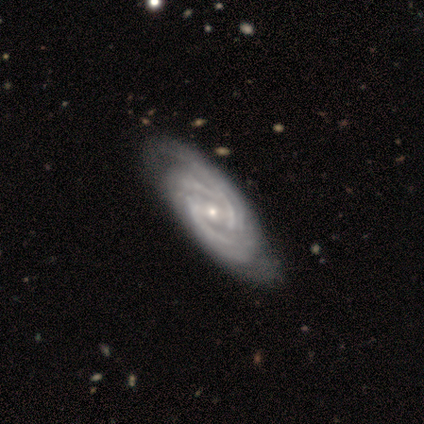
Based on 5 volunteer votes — A featured or disk galaxy (80%) with a weak bar (75%), 2 (50%) tight (75%) spiral arms (100%) and a small central bulge (100%).

Vote fractions:
- Smooth or featured? featured or disk: 80% / smooth: 20% / star or artifact: 0%
- Edge-on disk? no: 100% / yes: 0%
- Bar? weak: 75% / no: 25% / strong: 0%
- Spiral arms? yes: 100% / no: 0%
- Spiral winding? tight: 75% / medium: 25% / loose: 0%
- Spiral arm count? 2: 50% / 3: 25% / 4: 25% / 1: 0% / more than 4: 0% / can't tell: 0%
- Bulge size? small: 100% / dominant: 0% / large: 0% / moderate: 0% / none: 0%
- Merging? none: 80% / minor disturbance: 20% / major disturbance: 0% / merger: 0%